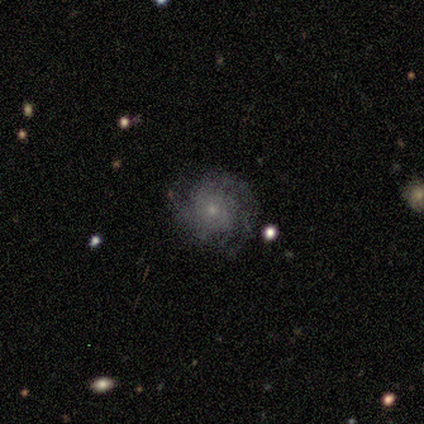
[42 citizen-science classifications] A featured or disk galaxy (76%) with no bar (97%), 2 (45%) tight (61%) spiral arms (97%) and a small central bulge (75%). Merging: none (69%).